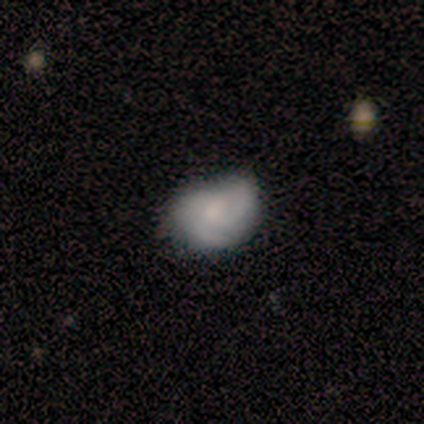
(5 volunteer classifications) A featured or disk galaxy (80%) with no bar (100%), 2 (50%, tied with 3) tight (100%) spiral arms (50%, tied with no) and a small central bulge (50%). Merging: minor disturbance (50%).